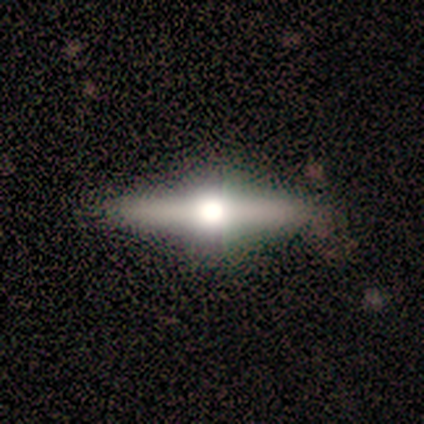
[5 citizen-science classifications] featured or disk 80%, smooth 20%, star or artifact 0%. Down the decision tree: edge-on disk — yes (100%); edge-on bulge — rounded (100%); merging — none (100%).